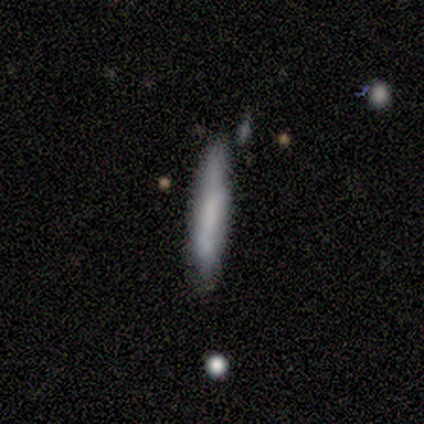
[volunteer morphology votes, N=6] A smooth galaxy with no disk features (100%) that is cigar-shaped (100%).

Vote fractions:
- Smooth or featured? smooth: 100% / featured or disk: 0% / star or artifact: 0%
- How rounded? cigar-shaped: 100% / round: 0% / in between: 0%
- Merging? minor disturbance: 67% / none: 33% / major disturbance: 0% / merger: 0%